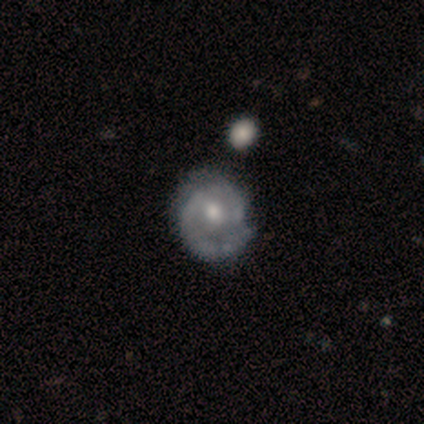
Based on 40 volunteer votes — A featured or disk galaxy (80%) with no bar (68%), 1 (41%) medium (48%) spiral arms (87%) and a moderate central bulge (65%).

Vote fractions:
- Smooth or featured? featured or disk: 80% / smooth: 15% / star or artifact: 5%
- Edge-on disk? no: 97% / yes: 3%
- Bar? no: 68% / weak: 29% / strong: 3%
- Spiral arms? yes: 87% / no: 13%
- Spiral winding? medium: 48% / tight: 37% / loose: 15%
- Spiral arm count? 1: 41% / 2: 37% / can't tell: 22% / 3: 0% / 4: 0% / more than 4: 0%
- Bulge size? moderate: 65% / small: 26% / large: 6% / none: 3% / dominant: 0%
- Merging? none: 55% / minor disturbance: 13% / merger: 11% / major disturbance: 8%